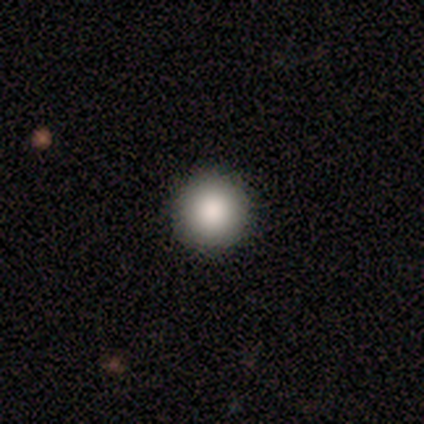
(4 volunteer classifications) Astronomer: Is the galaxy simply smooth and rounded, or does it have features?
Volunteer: smooth — 100%.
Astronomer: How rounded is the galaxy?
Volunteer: round — 100%.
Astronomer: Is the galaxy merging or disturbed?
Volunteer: none — 100%.